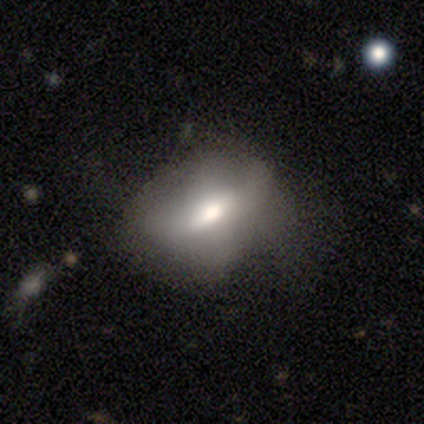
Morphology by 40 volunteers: Smooth or featured? smooth (48%)
How rounded? in between (68%)
Merging? none (51%)